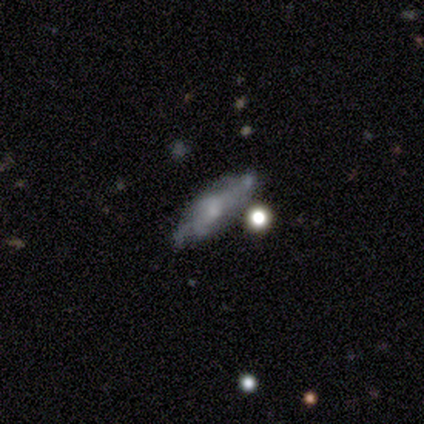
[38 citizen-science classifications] This is possibly a featured or disk galaxy (53%). It is possibly viewed edge-on (50%, tied with no). Edge-on bulge: possibly boxy (50%). Merging: possibly none (58%).